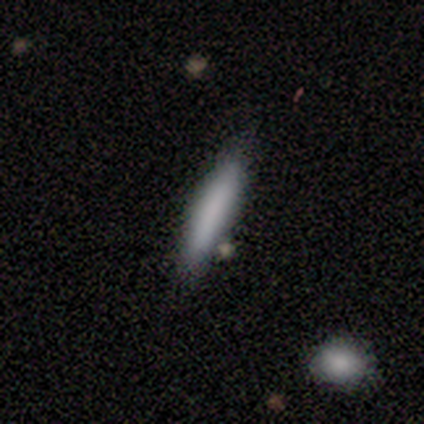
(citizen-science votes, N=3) Morphology: type=smooth (67%); roundness=in between (50%, tied with cigar-shaped); merging=none (67%).